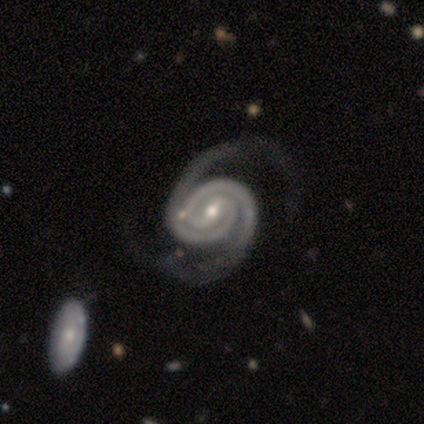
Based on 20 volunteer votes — Q: Smooth or featured?
A: featured or disk (100%)
Q: Edge-on disk?
A: no (100%)
Q: Bar?
A: weak (60%); runner-up: strong (20%)
Q: Spiral arms?
A: yes (100%)
Q: Spiral winding?
A: tight (75%); runner-up: medium (25%)
Q: Spiral arm count?
A: 2 (95%); runner-up: 3 (5%)
Q: Bulge size?
A: moderate (75%); runner-up: small (25%)
Q: Merging?
A: none (65%); runner-up: major disturbance (20%)